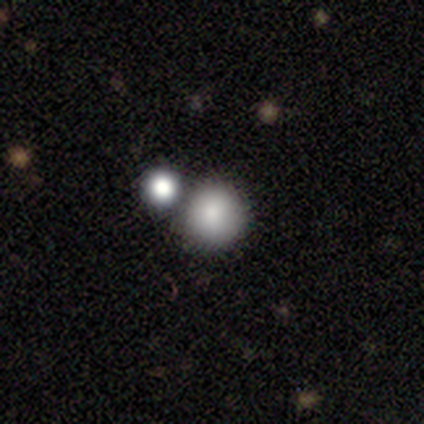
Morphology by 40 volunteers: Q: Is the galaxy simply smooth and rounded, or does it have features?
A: smooth — 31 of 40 (78%).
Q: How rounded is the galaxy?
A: round — 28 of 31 (90%).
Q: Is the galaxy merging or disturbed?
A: none — 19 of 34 (56%).